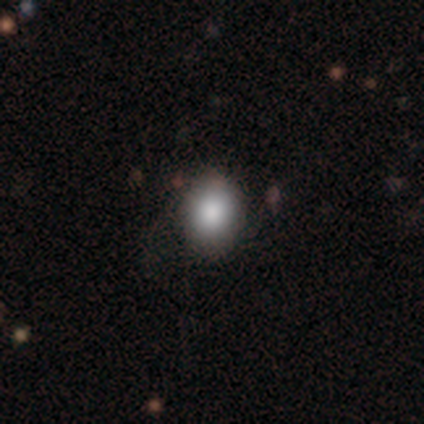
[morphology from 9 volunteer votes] This appears to be a smooth galaxy with no disk features (78%) that is in between round and cigar-shaped (57%). Merging: none (100%).